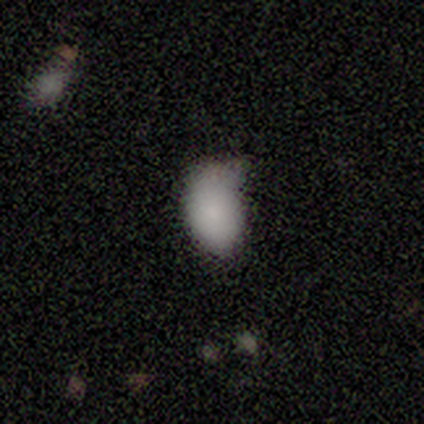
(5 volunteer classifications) A smooth galaxy with no disk features (80%) that is in between round and cigar-shaped (75%). Merging: none (50%, tied with major disturbance).